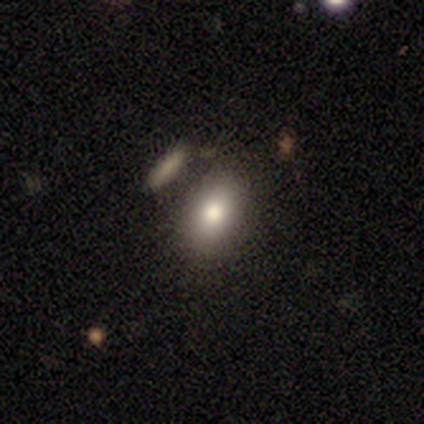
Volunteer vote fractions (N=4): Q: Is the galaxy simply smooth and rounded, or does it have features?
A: smooth — 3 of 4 (75%).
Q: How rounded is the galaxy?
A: in between — 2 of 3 (67%).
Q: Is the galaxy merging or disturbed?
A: none — 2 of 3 (67%).